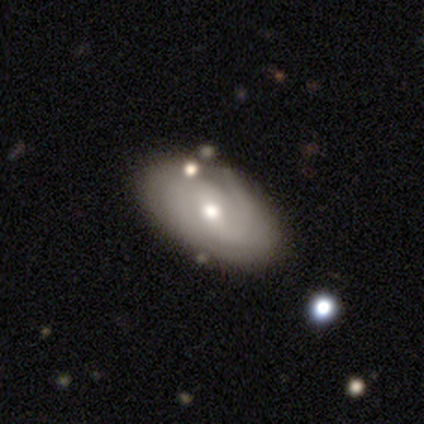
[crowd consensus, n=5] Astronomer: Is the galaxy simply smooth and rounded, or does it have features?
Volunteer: featured or disk — 80%.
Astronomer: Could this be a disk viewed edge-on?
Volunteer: no — 100%.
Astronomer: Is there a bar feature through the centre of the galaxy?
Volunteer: weak — 50%.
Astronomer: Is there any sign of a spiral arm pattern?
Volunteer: yes — 75%.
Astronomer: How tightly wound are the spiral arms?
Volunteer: medium — 67%.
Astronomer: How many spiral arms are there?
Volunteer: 2 — 67%.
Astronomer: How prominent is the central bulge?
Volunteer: moderate — 75%.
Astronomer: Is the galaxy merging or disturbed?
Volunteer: none — 60% (runner-up: minor disturbance, 40%).